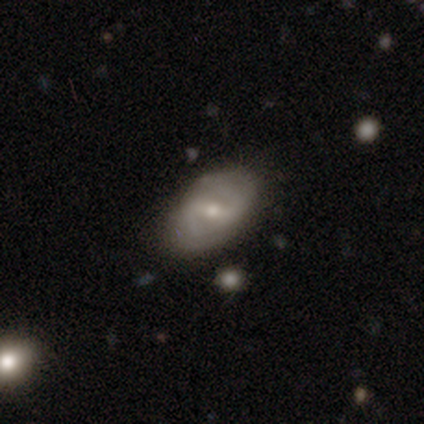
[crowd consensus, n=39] Morphology: type=featured or disk (77%); edge-on=no (93%); bar=weak (61%); spiral arms=yes (82%); winding=medium (61%); arm count=2 (87%); bulge=moderate (50%); merging=none (82%).